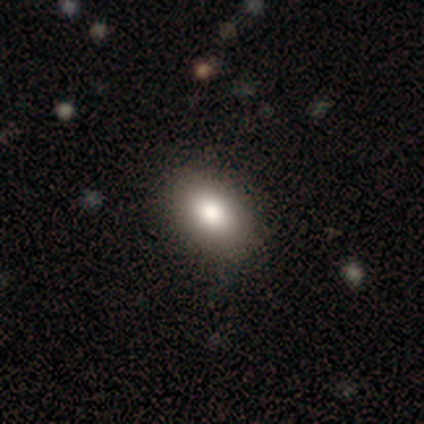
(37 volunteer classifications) Smooth or featured: smooth — 84% (featured or disk — 8%)
How rounded: in between — 90% (round — 10%)
Merging: none — 91% (minor disturbance — 9%)